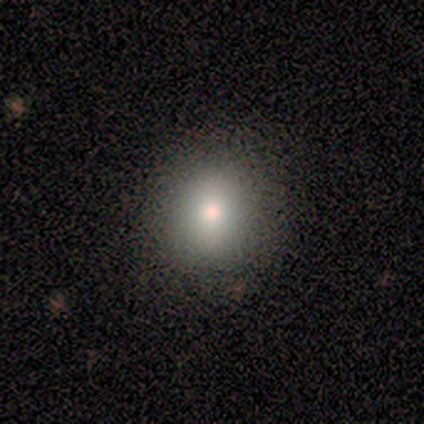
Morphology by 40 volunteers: This is likely a smooth galaxy (72%). How rounded: clearly round (93%). Merging: clearly none (97%).